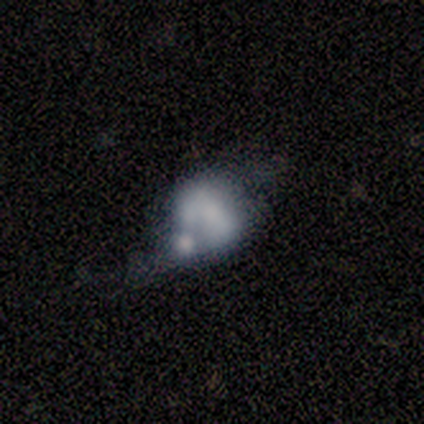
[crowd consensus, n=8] Q: Smooth or featured?
A: featured or disk (75%); runner-up: smooth (25%)
Q: Edge-on disk?
A: no (100%)
Q: Bar?
A: no (67%); runner-up: weak (33%)
Q: Spiral arms?
A: no (83%); runner-up: yes (17%)
Q: Bulge size?
A: none (67%); runner-up: dominant (17%)
Q: Merging?
A: merger (38%); runner-up: none (25%)